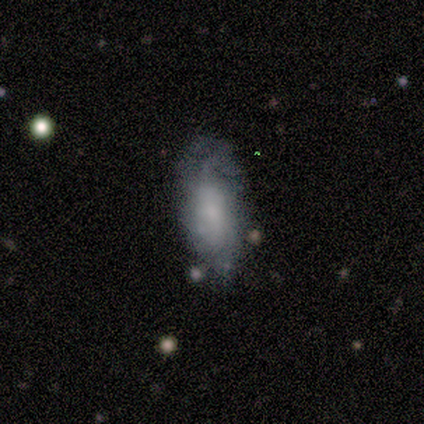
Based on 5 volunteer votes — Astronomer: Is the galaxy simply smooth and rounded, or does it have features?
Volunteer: featured or disk — 60% (runner-up: smooth, 40%).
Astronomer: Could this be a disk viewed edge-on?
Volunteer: no — 100%.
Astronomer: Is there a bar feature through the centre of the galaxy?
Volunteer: no — 100%.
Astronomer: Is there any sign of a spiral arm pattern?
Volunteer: yes — 67%.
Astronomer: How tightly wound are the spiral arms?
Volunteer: medium — 50%, tied with loose at 50%.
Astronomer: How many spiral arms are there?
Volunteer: can't tell — 100%.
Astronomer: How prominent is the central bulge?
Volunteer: small — 67%.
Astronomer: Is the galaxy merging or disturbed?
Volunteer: minor disturbance — 80%.